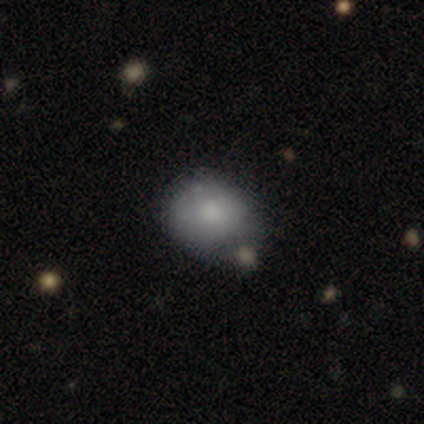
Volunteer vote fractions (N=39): smooth_or_featured: smooth (p=0.79) [alt: featured or disk p=0.13]
how_rounded: round (p=0.71) [alt: in between p=0.29]
merging: none (p=0.39) [alt: minor disturbance p=0.17]